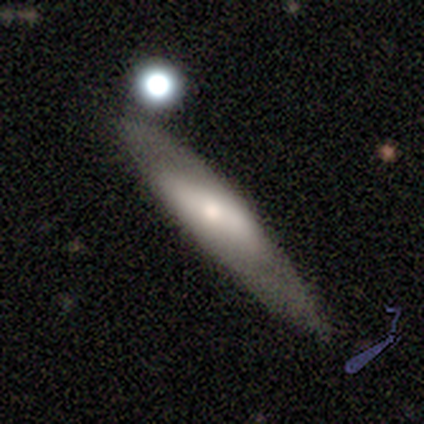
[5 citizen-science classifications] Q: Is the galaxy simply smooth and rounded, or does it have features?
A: featured or disk — 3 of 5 (60%).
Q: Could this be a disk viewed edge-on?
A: no — 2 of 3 (67%).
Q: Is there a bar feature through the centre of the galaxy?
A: strong — 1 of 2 (50%, tied with weak).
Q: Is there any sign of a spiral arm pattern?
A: no — 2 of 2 (100%).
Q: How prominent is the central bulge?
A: large — 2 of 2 (100%).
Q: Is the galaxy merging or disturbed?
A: none — 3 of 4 (75%).